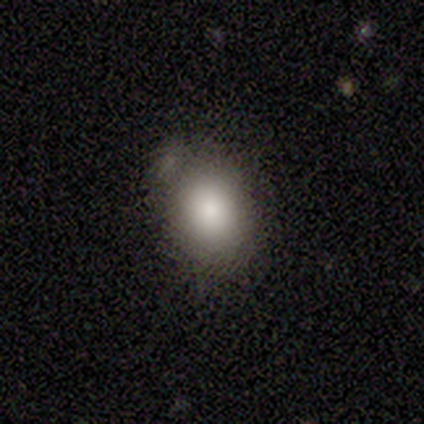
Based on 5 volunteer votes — Volunteers were most divided on "how rounded": round: 60%, in between: 40%, cigar-shaped: 0%. More confident: smooth or featured — smooth (100%); merging — none (60%).